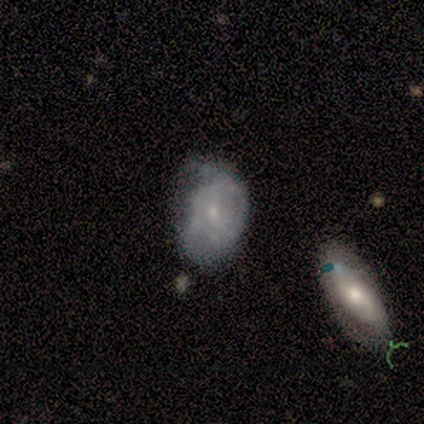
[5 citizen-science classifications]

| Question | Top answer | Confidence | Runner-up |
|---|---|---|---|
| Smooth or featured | featured or disk | 80% | smooth (20%) |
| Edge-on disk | no | 100% | — |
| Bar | no | 75% | weak (25%) |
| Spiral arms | no | 75% | yes (25%) |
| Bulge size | small | 75% | moderate (25%) |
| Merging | minor disturbance | 60% | none (20%) |